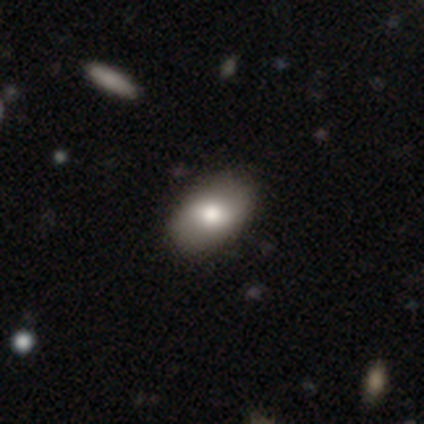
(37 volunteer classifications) Smooth or featured: smooth — 70% (star or artifact — 16%)
How rounded: in between — 96% (round — 4%)
Merging: none — 87% (minor disturbance — 10%)